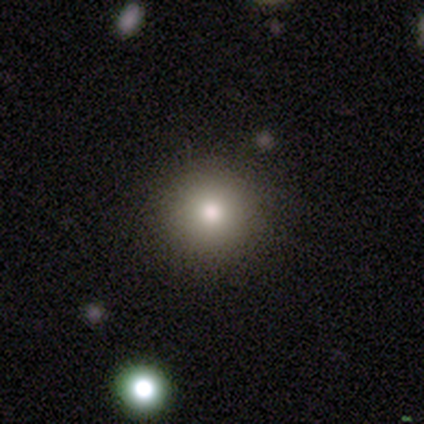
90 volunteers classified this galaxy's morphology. This appears to be a smooth galaxy with no disk features (81%) that is round (93%). Merging: none (90%).